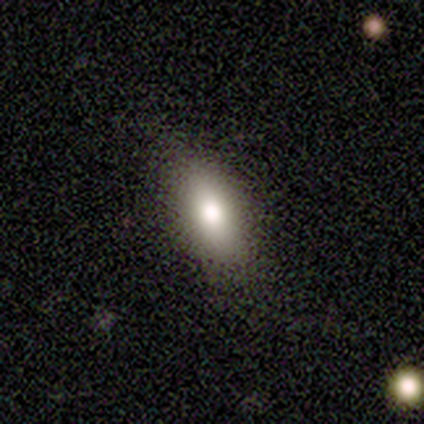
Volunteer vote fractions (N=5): smooth_or_featured: smooth (p=0.80) [alt: star or artifact p=0.20]
how_rounded: in between (p=0.50) [tied with: cigar-shaped p=0.50]
merging: none (p=0.50) [tied with: minor disturbance p=0.50]